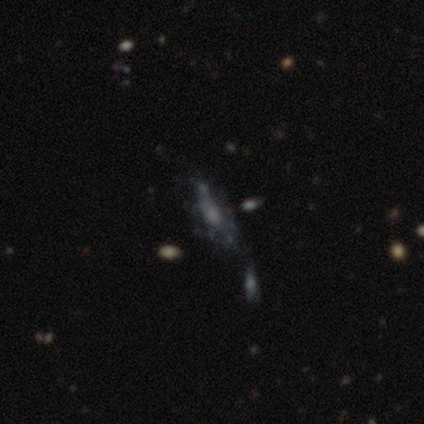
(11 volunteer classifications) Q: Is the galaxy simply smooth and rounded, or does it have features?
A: featured or disk — 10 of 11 (91%).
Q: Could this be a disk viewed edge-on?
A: no — 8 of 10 (80%).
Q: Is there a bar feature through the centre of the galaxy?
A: no — 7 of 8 (88%).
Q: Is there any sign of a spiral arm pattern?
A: no — 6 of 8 (75%).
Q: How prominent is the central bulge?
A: small — 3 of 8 (38%, tied with none).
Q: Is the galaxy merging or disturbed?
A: none — 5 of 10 (50%).